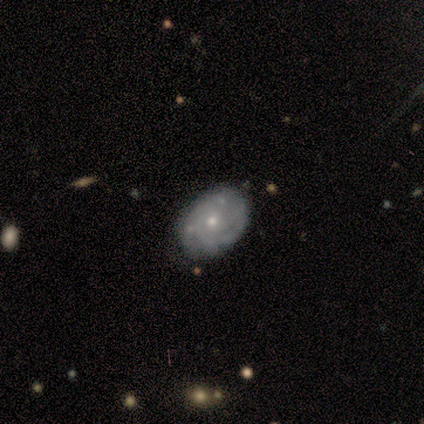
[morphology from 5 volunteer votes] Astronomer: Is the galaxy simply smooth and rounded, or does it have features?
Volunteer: featured or disk — 80%.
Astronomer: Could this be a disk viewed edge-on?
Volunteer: no — 100%.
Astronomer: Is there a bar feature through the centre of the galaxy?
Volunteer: no — 100%.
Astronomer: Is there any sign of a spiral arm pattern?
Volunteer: yes — 100%.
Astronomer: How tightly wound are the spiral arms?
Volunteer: tight — 50%, tied with medium at 50%.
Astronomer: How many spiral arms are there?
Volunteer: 3 — 75%.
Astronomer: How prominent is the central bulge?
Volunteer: small — 75%.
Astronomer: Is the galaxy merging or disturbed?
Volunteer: none — 50%.